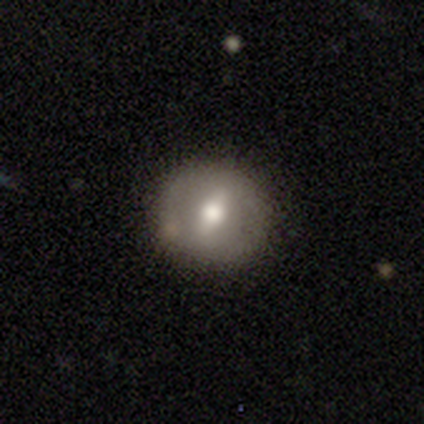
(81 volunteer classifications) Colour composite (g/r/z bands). It shows a smooth galaxy with no disk features (57%) that is round (85%). Merging: none (46%).